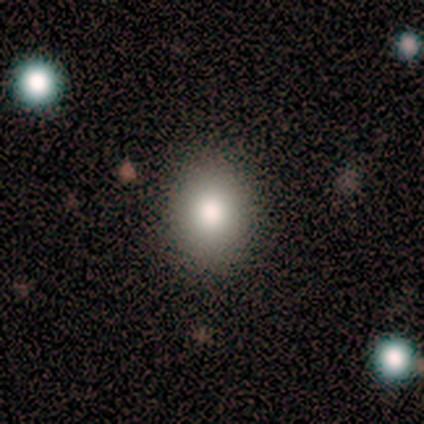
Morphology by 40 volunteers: A smooth galaxy with no disk features (82%) that is round (52%).

Vote fractions:
- Smooth or featured? smooth: 82% / star or artifact: 10% / featured or disk: 8%
- How rounded? round: 52% / in between: 48% / cigar-shaped: 0%
- Merging? none: 92% / minor disturbance: 6% / major disturbance: 3% / merger: 0%